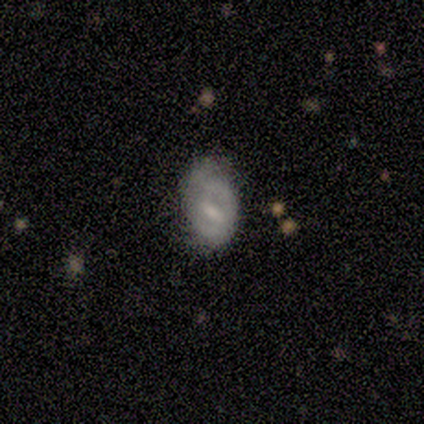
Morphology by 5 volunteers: Smooth or featured? 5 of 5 (100%) said featured or disk. Edge-on disk? 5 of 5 (100%) said no. Bar? 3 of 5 (60%) said no. Spiral arms? 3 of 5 (60%) said no. Bulge size? 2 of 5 (40%) said small. Merging? 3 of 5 (60%) said none.